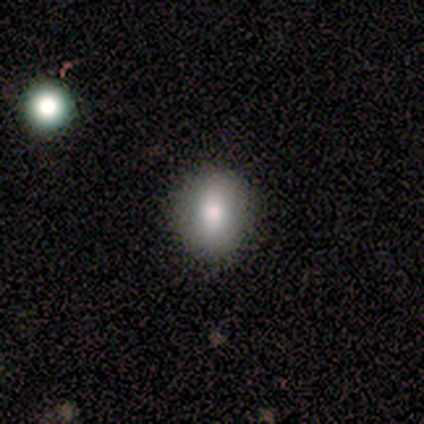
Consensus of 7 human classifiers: smooth-or-featured: smooth: 86% | featured or disk: 14% | star or artifact: 0%
  how-rounded: round: 67% | in between: 33% | cigar-shaped: 0%
  merging: none: 86% | merger: 14% | minor disturbance: 0% | major disturbance: 0%